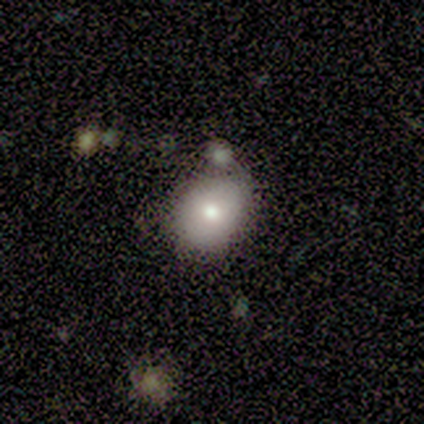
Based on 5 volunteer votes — smooth_or_featured: smooth (p=0.40) [tied with: featured or disk p=0.40]
how_rounded: in between (p=1.00)
merging: none (p=0.75) [alt: merger p=0.25]